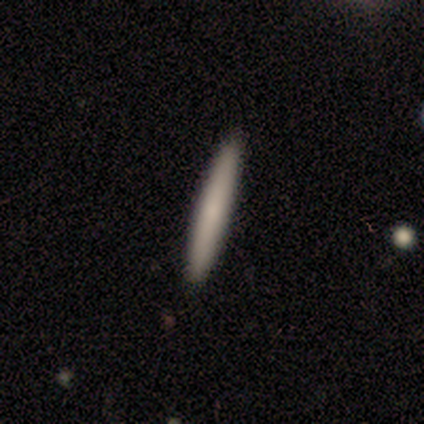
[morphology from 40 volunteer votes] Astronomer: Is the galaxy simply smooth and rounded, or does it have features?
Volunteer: smooth — 72%.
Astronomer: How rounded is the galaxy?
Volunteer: cigar-shaped — 100%.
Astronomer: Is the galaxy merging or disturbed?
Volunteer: none — 100%.